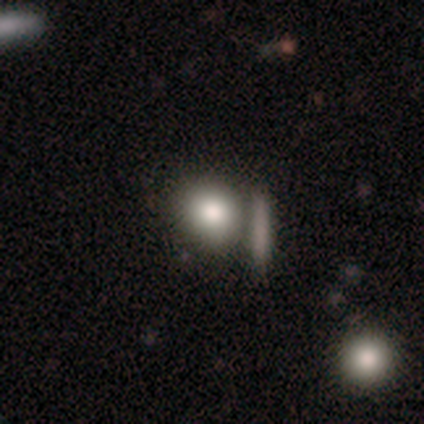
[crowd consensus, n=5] Morphology: type=smooth (80%); roundness=round (50%, tied with in between); merging=none (75%).